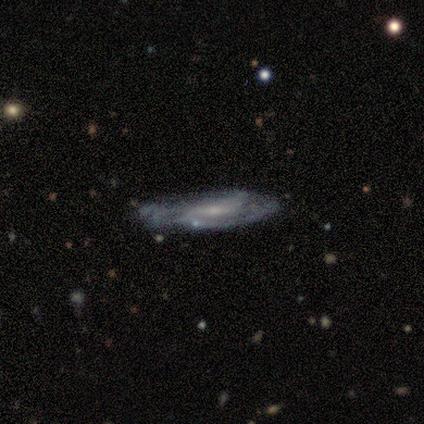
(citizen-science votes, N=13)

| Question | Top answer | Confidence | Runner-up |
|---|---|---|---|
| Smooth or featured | featured or disk | 92% | smooth (8%) |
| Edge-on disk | no | 67% | yes (33%) |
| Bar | weak | 50% | strong (38%) |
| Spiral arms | yes | 100% | — |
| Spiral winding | loose | 50% | medium (38%) |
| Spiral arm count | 2 | 50% | tied: can't tell (50%) |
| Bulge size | small | 50% | moderate (38%) |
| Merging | none | 46% | tied: minor disturbance (46%) |